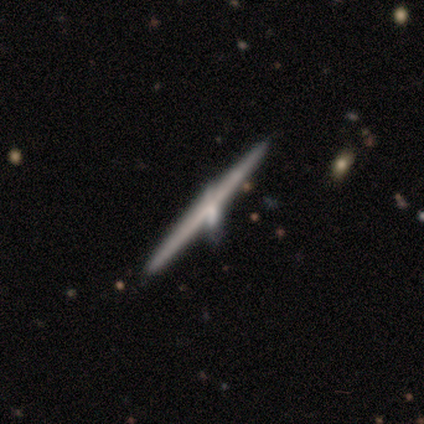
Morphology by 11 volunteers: Overall: featured or disk (64%; smooth 36%). Edge-on disk: yes (100%). Edge-on bulge: none (43%, tied with rounded). Merging: none (82%).